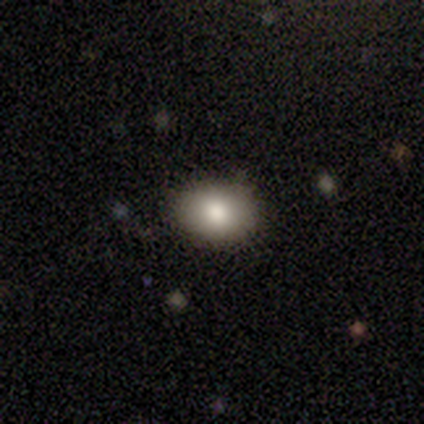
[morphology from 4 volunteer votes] Q: Smooth or featured?
A: smooth (50%); tied with: featured or disk (50%)
Q: How rounded?
A: in between (100%)
Q: Merging?
A: none (100%)